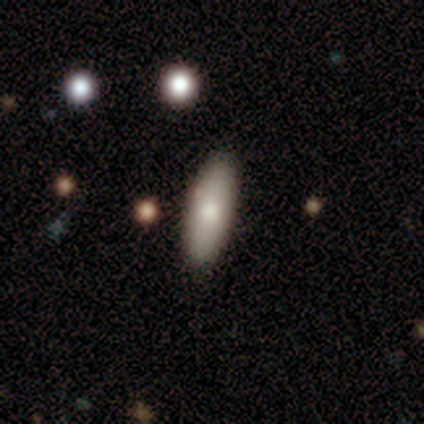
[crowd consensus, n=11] Smooth or featured? 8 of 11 (73%) said smooth. How rounded? 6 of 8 (75%) said in between. Merging? 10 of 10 (100%) said none.